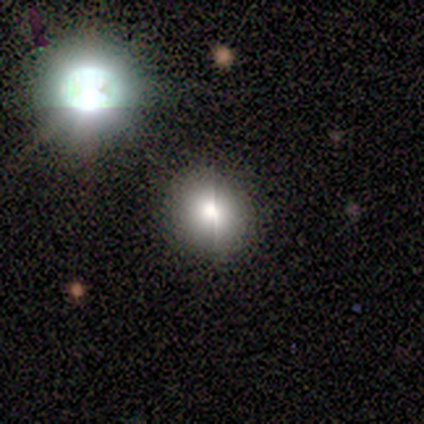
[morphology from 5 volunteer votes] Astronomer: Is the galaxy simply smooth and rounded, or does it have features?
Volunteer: smooth — 100%.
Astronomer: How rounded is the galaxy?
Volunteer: round — 100%.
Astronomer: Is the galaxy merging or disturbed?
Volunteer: none — 60%.